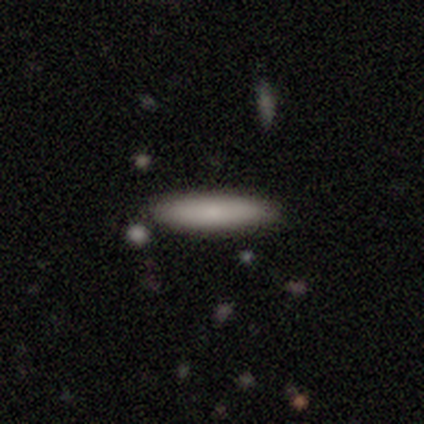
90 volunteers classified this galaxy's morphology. This appears to be a smooth galaxy with no disk features (86%) that is cigar-shaped (91%). Merging: none (83%).